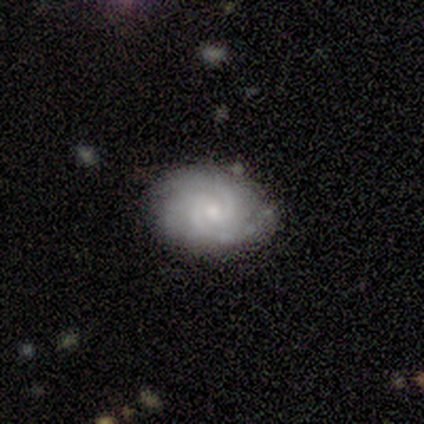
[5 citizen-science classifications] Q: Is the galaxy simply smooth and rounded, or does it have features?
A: featured or disk — 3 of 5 (60%).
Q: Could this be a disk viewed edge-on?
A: no — 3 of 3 (100%).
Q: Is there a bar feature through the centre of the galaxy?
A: weak — 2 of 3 (67%).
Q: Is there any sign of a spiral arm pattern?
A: yes — 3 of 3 (100%).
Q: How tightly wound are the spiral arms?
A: tight — 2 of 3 (67%).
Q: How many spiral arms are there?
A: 2 — 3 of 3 (100%).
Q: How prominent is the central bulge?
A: small — 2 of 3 (67%).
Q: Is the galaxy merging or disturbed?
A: none — 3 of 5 (60%).